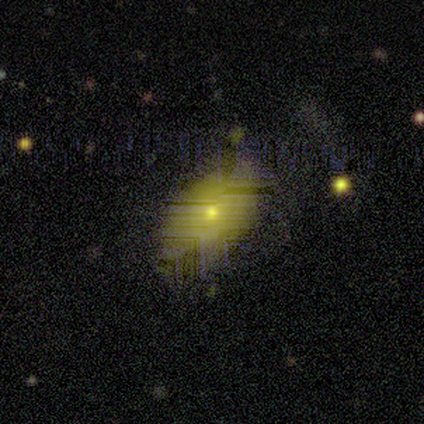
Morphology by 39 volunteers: smooth 36% (tied), featured or disk 36% (tied), star or artifact 28%. Down the decision tree: how rounded — in between (86%); merging — none (71%).